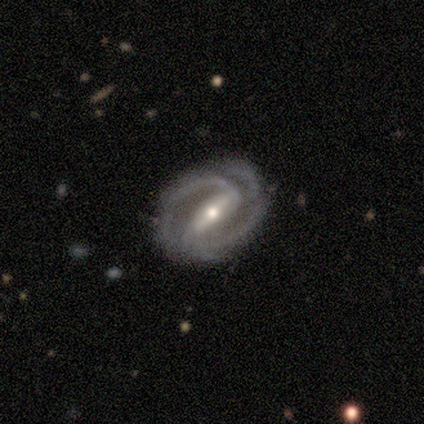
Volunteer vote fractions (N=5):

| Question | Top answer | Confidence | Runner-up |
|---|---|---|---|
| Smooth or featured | featured or disk | 100% | — |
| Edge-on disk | no | 100% | — |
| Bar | strong | 100% | — |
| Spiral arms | yes | 100% | — |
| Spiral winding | tight | 80% | loose (20%) |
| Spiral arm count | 2 | 80% | 4 (20%) |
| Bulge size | moderate | 60% | small (40%) |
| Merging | none | 40% | tied: minor disturbance (40%) |